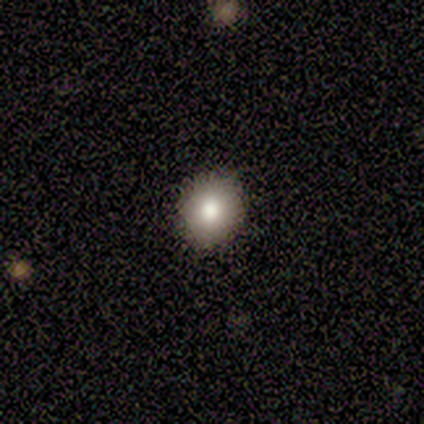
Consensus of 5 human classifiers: smooth_or_featured: smooth (p=0.80) [alt: featured or disk p=0.20]
how_rounded: round (p=1.00)
merging: none (p=1.00)